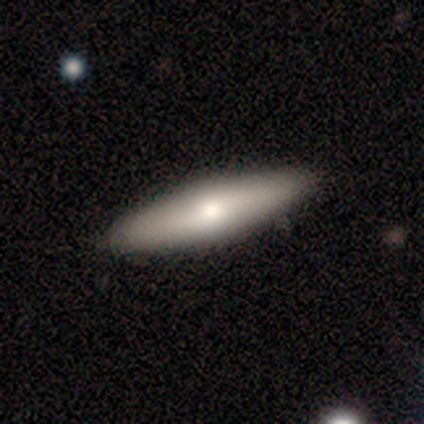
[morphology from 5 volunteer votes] A smooth galaxy with no disk features (40%, tied with featured or disk) that is in between round and cigar-shaped (50%, tied with cigar-shaped).

Vote fractions:
- Smooth or featured? smooth: 40% (tied) / featured or disk: 40% (tied) / star or artifact: 20%
- How rounded? in between: 50% (tied) / cigar-shaped: 50% (tied) / round: 0%
- Merging? none: 100% / minor disturbance: 0% / major disturbance: 0% / merger: 0%